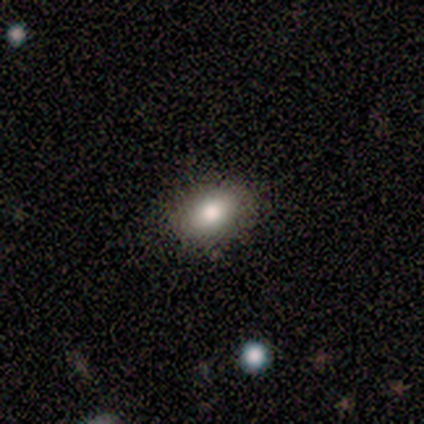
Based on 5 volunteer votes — Q: Smooth or featured?
A: smooth (80%); runner-up: featured or disk (20%)
Q: How rounded?
A: in between (100%)
Q: Merging?
A: none (100%)